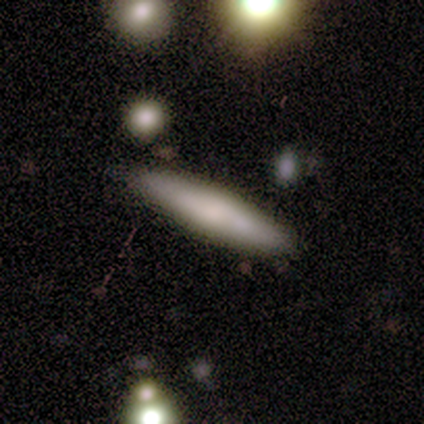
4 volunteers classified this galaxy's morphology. This is clearly a smooth galaxy (100%). How rounded: clearly cigar-shaped (100%). Merging: likely none (75%).